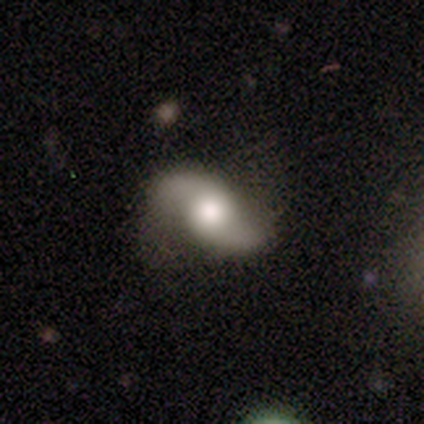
Smooth or featured: smooth — 60% (featured or disk — 40%)
How rounded: in between — 100%
Merging: none — 100%